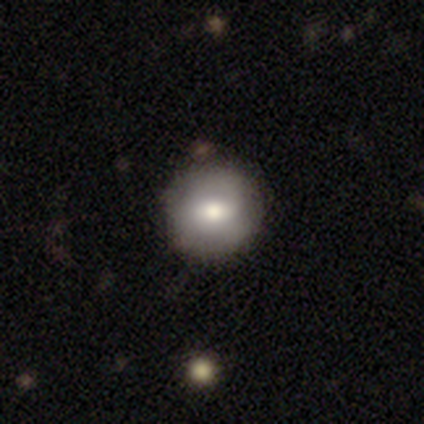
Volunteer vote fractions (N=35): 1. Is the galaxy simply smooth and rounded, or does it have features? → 51% smooth, 46% featured or disk, 3% star or artifact.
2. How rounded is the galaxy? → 83% round, 17% in between, 0% cigar-shaped.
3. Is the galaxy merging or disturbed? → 59% none, 9% merger, 6% minor disturbance, 3% major disturbance.